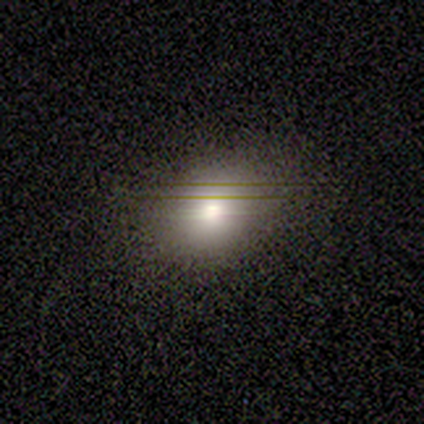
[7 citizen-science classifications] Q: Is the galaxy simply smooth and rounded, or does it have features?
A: smooth — 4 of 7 (57%).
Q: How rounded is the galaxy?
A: in between — 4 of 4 (100%).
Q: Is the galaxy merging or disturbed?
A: none — 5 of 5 (100%).